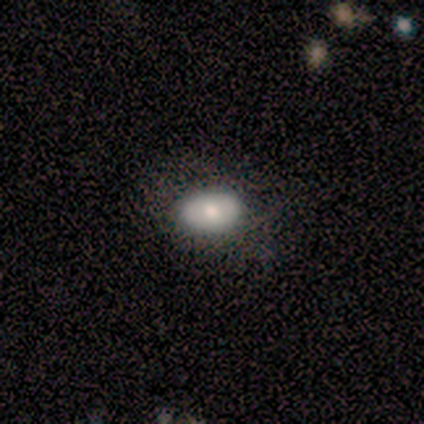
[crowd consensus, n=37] Smooth or featured? smooth (84%)
How rounded? in between (71%)
Merging? none (92%)